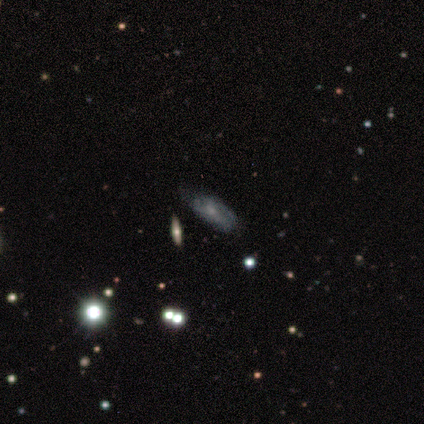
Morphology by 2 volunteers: smooth-or-featured: featured or disk: 100% | smooth: 0% | star or artifact: 0%
  disk-edge-on: no: 100% | yes: 0%
    bar: no: 100% | strong: 0% | weak: 0%
    has-spiral-arms: yes: 100% | no: 0%
      spiral-winding: tight: 50% (tied) | medium: 50% (tied) | loose: 0%
      spiral-arm-count: can't tell: 100% | 1: 0% | 2: 0% | 3: 0% | 4: 0% | more than 4: 0%
    bulge-size: small: 100% | dominant: 0% | large: 0% | moderate: 0% | none: 0%
  merging: none: 50% (tied) | minor disturbance: 50% (tied) | major disturbance: 0% | merger: 0%